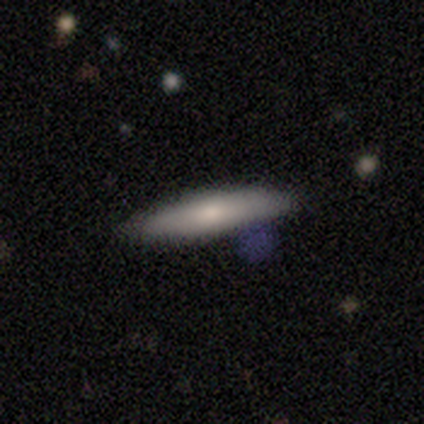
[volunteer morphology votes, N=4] This appears to be a smooth galaxy with no disk features (75%) that is cigar-shaped (67%). Merging: none (75%).